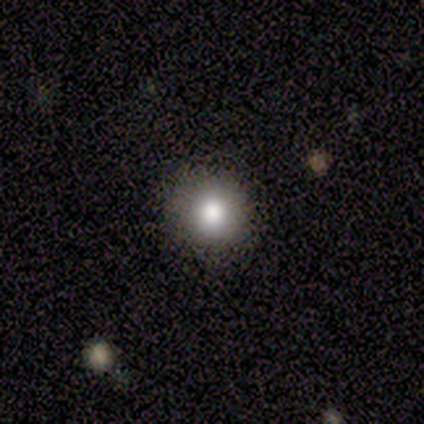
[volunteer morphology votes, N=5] Smooth or featured?
  - smooth: 100% *
  - featured or disk: 0%
  - star or artifact: 0%
How rounded?
  - round: 100% *
  - in between: 0%
  - cigar-shaped: 0%
Merging?
  - none: 100% *
  - minor disturbance: 0%
  - major disturbance: 0%
  - merger: 0%